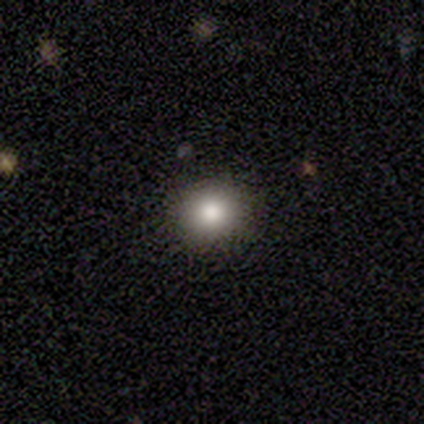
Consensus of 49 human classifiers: This is likely a smooth galaxy (80%). How rounded: likely round (79%). Merging: clearly none (93%).